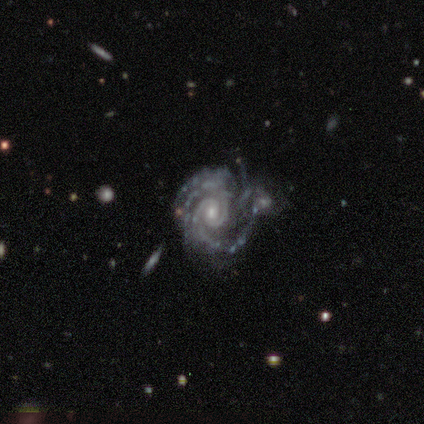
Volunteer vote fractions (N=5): This is clearly a featured or disk galaxy (100%). It is clearly not viewed edge-on (80%). Bar: possibly weak (50%, tied with no). Spiral arm pattern: clearly yes (100%). Spiral arm count: possibly 3 (50%). Spiral winding: likely tight (75%). Central bulge: clearly small (100%). Merging: clearly minor disturbance (80%).